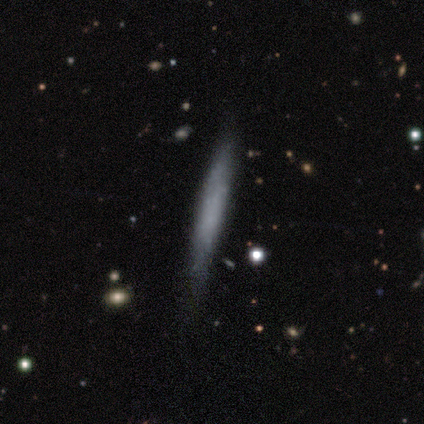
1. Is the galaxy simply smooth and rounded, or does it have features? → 40% smooth (tied), 40% featured or disk (tied), 20% star or artifact.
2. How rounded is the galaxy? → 100% cigar-shaped, 0% round, 0% in between.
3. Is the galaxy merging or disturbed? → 50% minor disturbance, 25% none, 25% merger, 0% major disturbance.